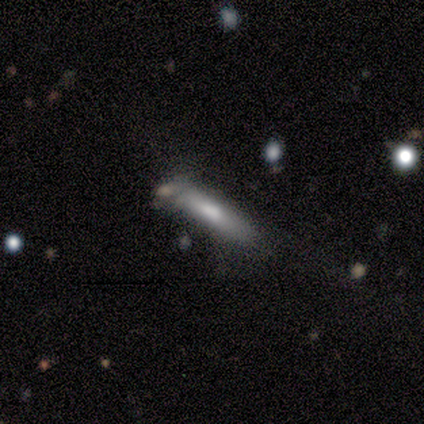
Q: Smooth or featured?
A: featured or disk (80%); runner-up: smooth (20%)
Q: Edge-on disk?
A: yes (75%); runner-up: no (25%)
Q: Edge-on bulge?
A: none (67%); runner-up: rounded (33%)
Q: Merging?
A: none (100%)